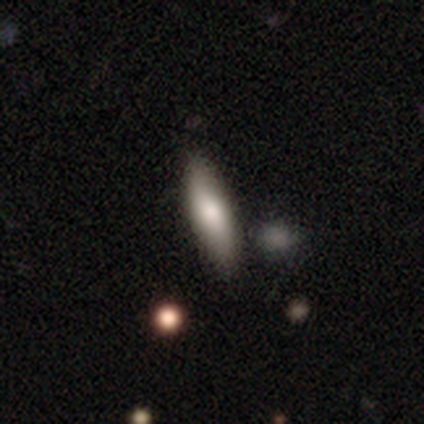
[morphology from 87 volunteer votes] This is likely a smooth galaxy (72%). How rounded: possibly cigar-shaped (57%). Merging: clearly none (83%).